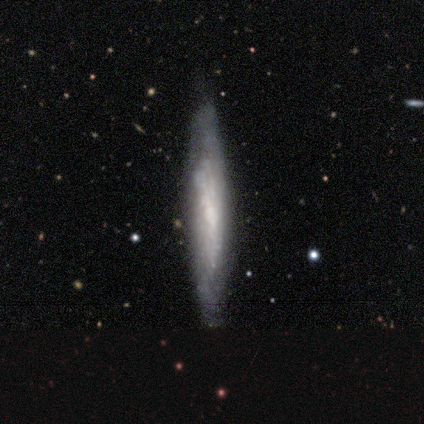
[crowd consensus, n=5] Q: Smooth or featured?
A: featured or disk (80%); runner-up: smooth (20%)
Q: Edge-on disk?
A: yes (75%); runner-up: no (25%)
Q: Edge-on bulge?
A: none (67%); runner-up: boxy (33%)
Q: Merging?
A: none (100%)